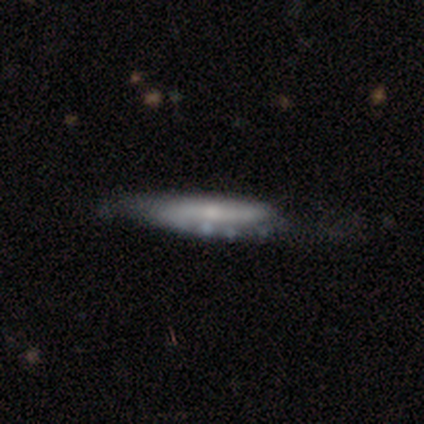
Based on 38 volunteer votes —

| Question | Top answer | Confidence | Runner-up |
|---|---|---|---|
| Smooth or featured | featured or disk | 63% | smooth (37%) |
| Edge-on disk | yes | 71% | no (29%) |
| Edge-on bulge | rounded | 53% | none (41%) |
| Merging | none | 39% | tied: minor disturbance (39%) |